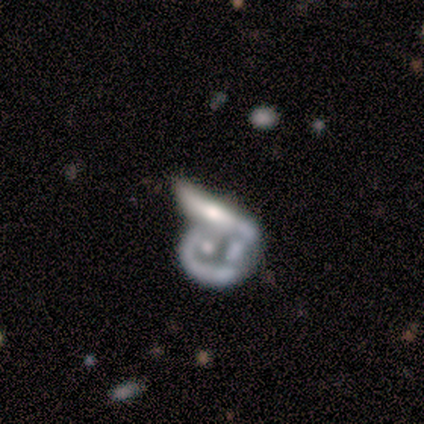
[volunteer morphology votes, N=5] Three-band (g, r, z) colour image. It shows a featured or disk galaxy (80%) with no bar (100%), no spiral arms (67%) and a large central bulge (33%, tied with small and none). Merging: merger (50%).